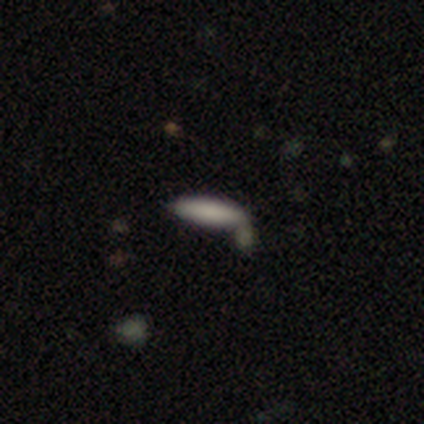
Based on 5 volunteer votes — Q: Smooth or featured?
A: smooth (80%); runner-up: featured or disk (20%)
Q: How rounded?
A: in between (75%); runner-up: cigar-shaped (25%)
Q: Merging?
A: none (60%); runner-up: minor disturbance (40%)